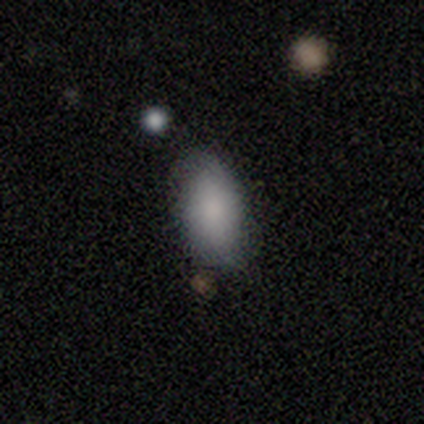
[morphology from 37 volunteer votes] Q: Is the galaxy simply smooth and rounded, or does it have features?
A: smooth — 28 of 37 (76%).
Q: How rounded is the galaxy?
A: in between — 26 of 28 (93%).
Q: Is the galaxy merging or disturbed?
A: none — 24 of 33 (73%).